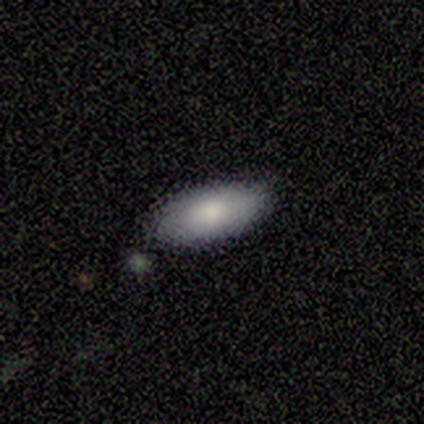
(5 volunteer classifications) smooth 100%, featured or disk 0%, star or artifact 0%. Down the decision tree: how rounded — in between (80%); merging — none (60%).